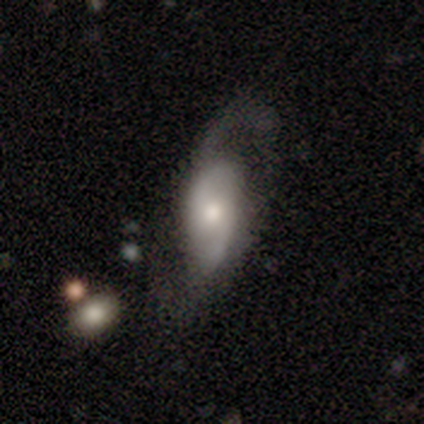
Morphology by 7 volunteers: A featured or disk galaxy (86%) with no bar (80%), 2 (100%) loose (60%) spiral arms (100%) and a small central bulge (60%). Merging: none (86%).